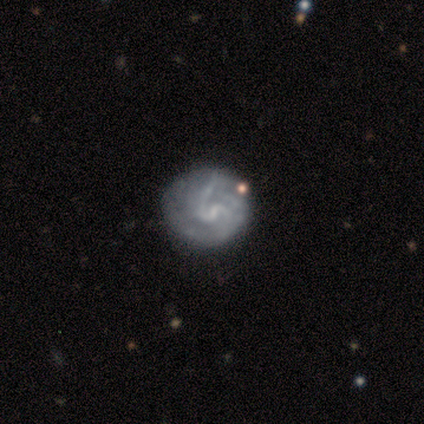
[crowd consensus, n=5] Smooth or featured? featured or disk (80%)
Edge-on disk? no (100%)
Bar? weak (50%, tied with no)
Spiral arms? yes (50%, tied with no)
Spiral winding? tight (50%, tied with medium)
Spiral arm count? can't tell (100%)
Bulge size? small (75%)
Merging? none (60%)